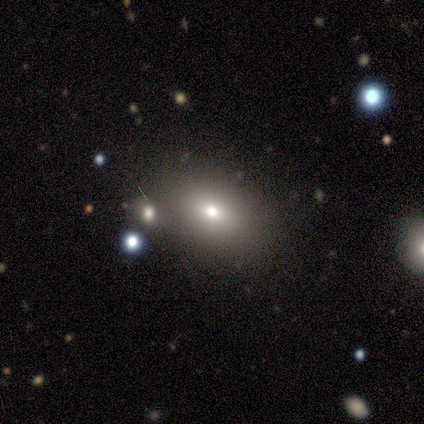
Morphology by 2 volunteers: smooth 100%, featured or disk 0%, star or artifact 0%. Down the decision tree: how rounded — in between (100%); merging — none (100%).